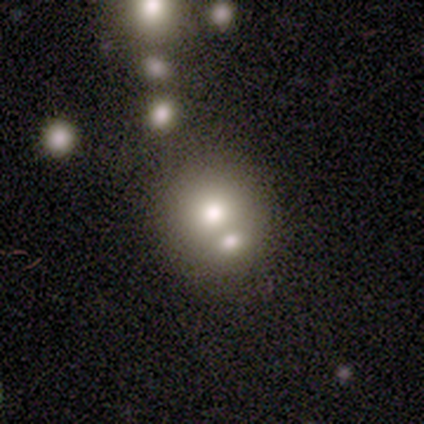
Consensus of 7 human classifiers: Smooth or featured? smooth (43%, tied with star or artifact)
How rounded? round (67%)
Merging? merger (75%)